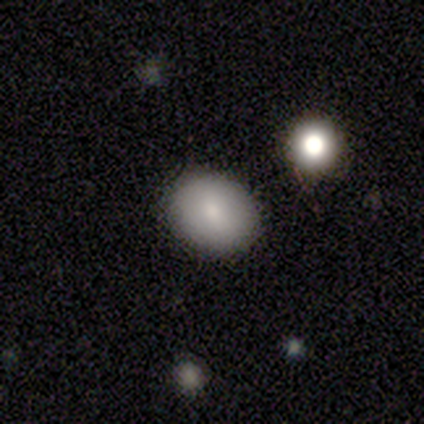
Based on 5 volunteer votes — smooth 60%, featured or disk 40%, star or artifact 0%. Down the decision tree: how rounded — round (67%); merging — none (60%).